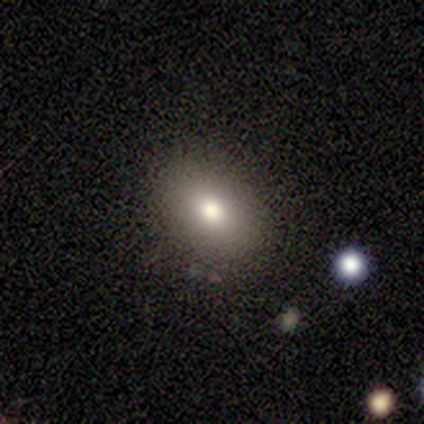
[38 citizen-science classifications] A smooth galaxy with no disk features (79%) that is in between round and cigar-shaped (70%). Merging: none (92%).